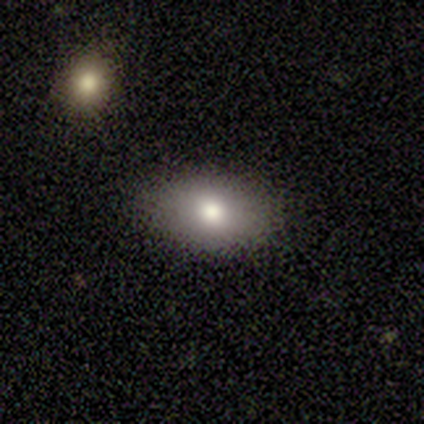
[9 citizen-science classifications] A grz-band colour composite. It shows a smooth galaxy with no disk features (100%) that is in between round and cigar-shaped (100%). Merging: none (89%).